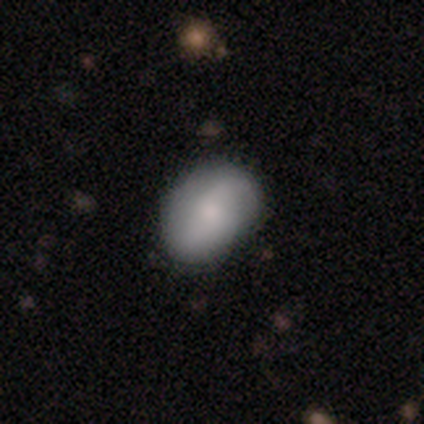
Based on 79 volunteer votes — Q: Smooth or featured?
A: smooth (71%); runner-up: featured or disk (28%)
Q: How rounded?
A: in between (82%); runner-up: round (18%)
Q: Merging?
A: none (79%); runner-up: minor disturbance (17%)